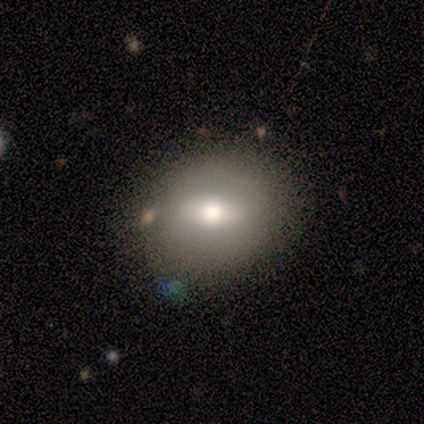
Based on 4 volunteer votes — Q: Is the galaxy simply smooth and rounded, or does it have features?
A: smooth — 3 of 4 (75%).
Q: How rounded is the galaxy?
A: round — 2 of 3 (67%).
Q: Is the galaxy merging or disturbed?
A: none — 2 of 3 (67%).